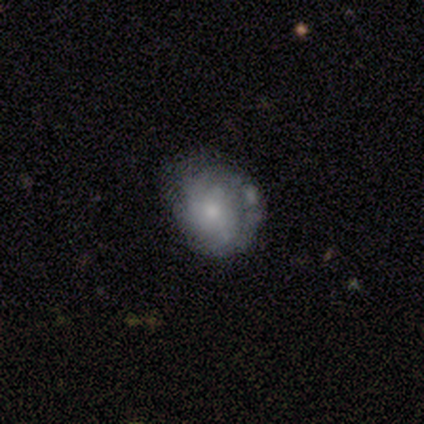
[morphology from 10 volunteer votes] smooth-or-featured: featured or disk: 70% | smooth: 20% | star or artifact: 10%
  disk-edge-on: no: 86% | yes: 14%
    bar: no: 83% | weak: 17% | strong: 0%
    has-spiral-arms: no: 67% | yes: 33%
    bulge-size: small: 83% | none: 17% | dominant: 0% | large: 0% | moderate: 0%
  merging: none: 44% | minor disturbance: 22% | major disturbance: 22% | merger: 11%